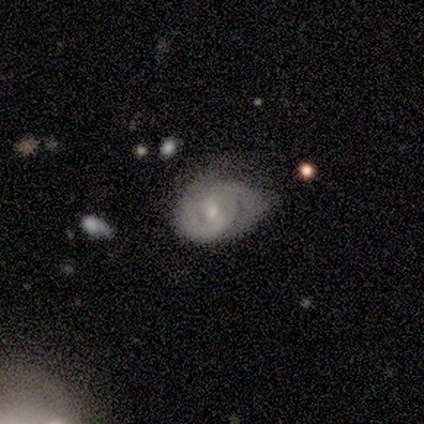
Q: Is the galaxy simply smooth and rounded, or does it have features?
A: smooth — 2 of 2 (100%).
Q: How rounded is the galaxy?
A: round — 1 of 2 (50%, tied with in between).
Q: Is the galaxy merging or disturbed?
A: minor disturbance — 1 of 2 (50%, tied with major disturbance).